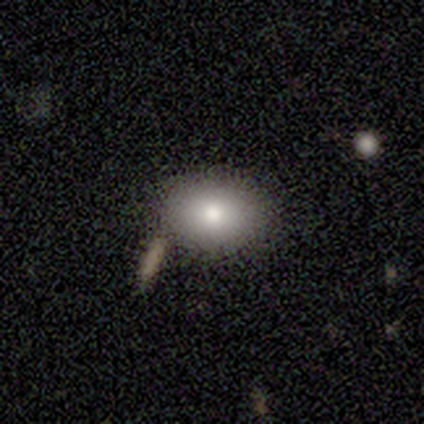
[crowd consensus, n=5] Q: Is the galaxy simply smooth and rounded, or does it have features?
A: smooth — 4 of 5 (80%).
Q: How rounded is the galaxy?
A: round — 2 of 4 (50%, tied with in between).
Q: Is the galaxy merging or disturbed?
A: none — 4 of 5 (80%).